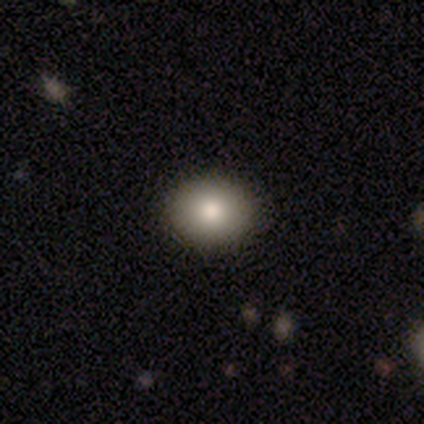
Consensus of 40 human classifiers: Smooth or featured? 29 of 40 (72%) said smooth. How rounded? 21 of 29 (72%) said round. Merging? 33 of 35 (94%) said none.